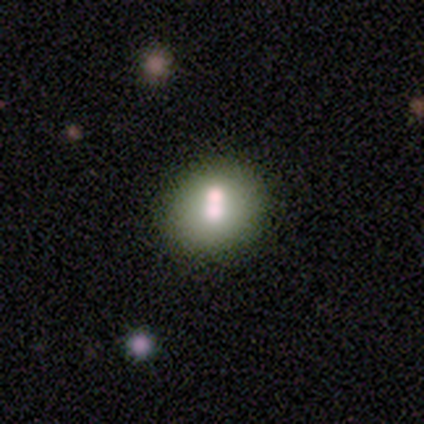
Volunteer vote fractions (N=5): Morphology: type=smooth (80%); roundness=round (100%); merging=none (60%).